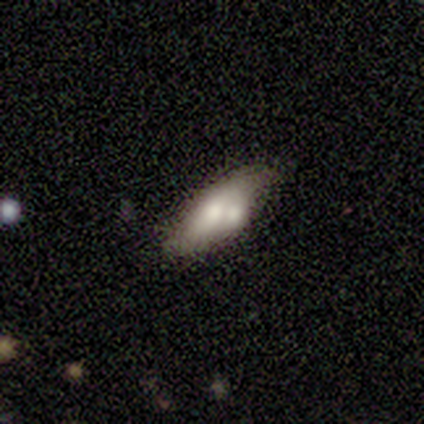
Morphology: type=featured or disk (60%); edge-on=no (67%); bar=no (100%); spiral arms=no (100%); bulge=large (100%); merging=merger (75%).